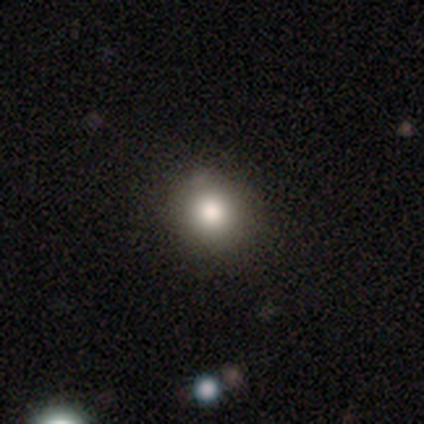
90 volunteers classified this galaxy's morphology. Volunteers were most divided on "smooth or featured": smooth: 76%, featured or disk: 12%, star or artifact: 12%. More confident: merging — none (90%); how rounded — round (87%).